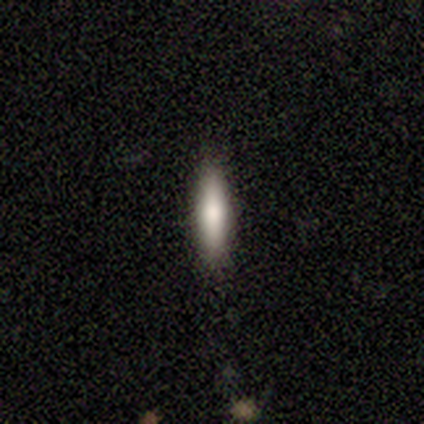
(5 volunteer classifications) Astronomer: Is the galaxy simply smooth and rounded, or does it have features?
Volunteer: smooth — 100%.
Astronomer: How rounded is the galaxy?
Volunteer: cigar-shaped — 60% (runner-up: in between, 40%).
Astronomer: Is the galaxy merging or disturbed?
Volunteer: none — 100%.